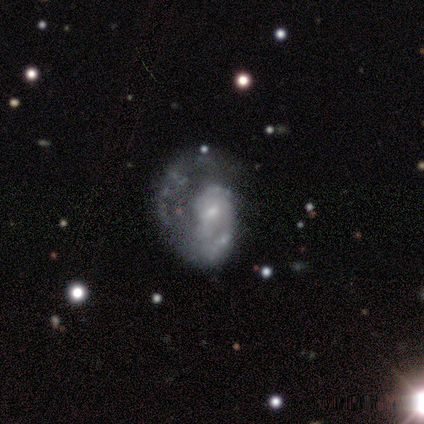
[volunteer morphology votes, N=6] A featured or disk galaxy (67%) with a weak bar (50%, tied with no), 1 (75%) tight (75%) spiral arms (100%) and a moderate central bulge (50%).

Vote fractions:
- Smooth or featured? featured or disk: 67% / smooth: 17% / star or artifact: 17%
- Edge-on disk? no: 100% / yes: 0%
- Bar? weak: 50% (tied) / no: 50% (tied) / strong: 0%
- Spiral arms? yes: 100% / no: 0%
- Spiral winding? tight: 75% / medium: 25% / loose: 0%
- Spiral arm count? 1: 75% / 3: 25% / 2: 0% / 4: 0% / more than 4: 0% / can't tell: 0%
- Bulge size? moderate: 50% / small: 25% / none: 25% / dominant: 0% / large: 0%
- Merging? none: 40% / minor disturbance: 20% / major disturbance: 20% / merger: 20%